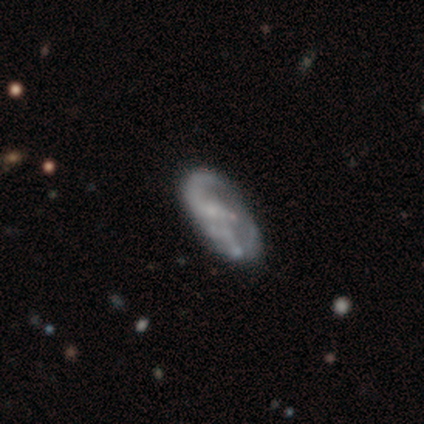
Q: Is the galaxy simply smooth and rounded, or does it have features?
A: featured or disk — 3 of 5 (60%).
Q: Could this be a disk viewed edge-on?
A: no — 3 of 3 (100%).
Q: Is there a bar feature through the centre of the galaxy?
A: no — 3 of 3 (100%).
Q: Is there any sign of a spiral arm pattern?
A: yes — 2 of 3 (67%).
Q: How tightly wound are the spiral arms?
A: medium — 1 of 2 (50%, tied with loose).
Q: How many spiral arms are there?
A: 2 — 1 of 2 (50%, tied with can't tell).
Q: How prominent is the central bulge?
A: moderate — 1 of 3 (33%, tied with small and none).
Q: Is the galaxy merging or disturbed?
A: minor disturbance — 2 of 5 (40%).